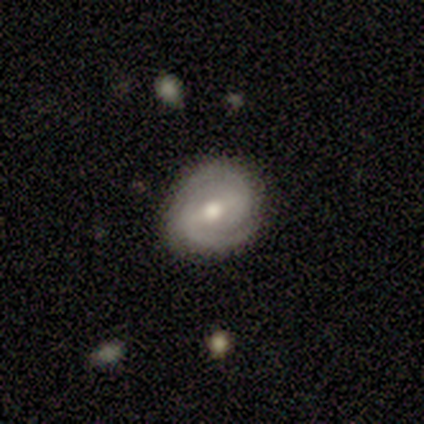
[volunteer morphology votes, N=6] Overall: featured or disk (67%; smooth 33%). Edge-on disk: no (100%). Bar: weak (50%, tied with no). Spiral arms: yes (100%). Spiral arm count: 2 (75%). Spiral winding: tight (75%). Bulge size: moderate (50%, tied with small). Merging: none (100%).